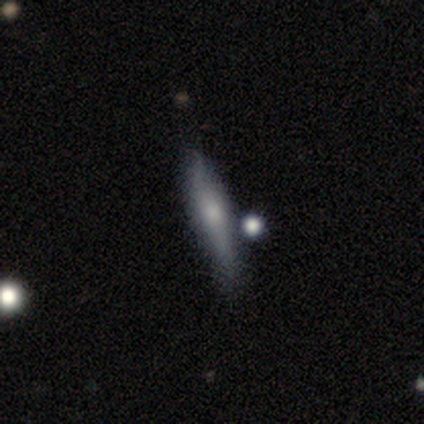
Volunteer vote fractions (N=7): Smooth or featured? 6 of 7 (86%) said featured or disk. Edge-on disk? 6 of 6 (100%) said yes. Edge-on bulge? 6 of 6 (100%) said rounded. Merging? 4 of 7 (57%) said none.